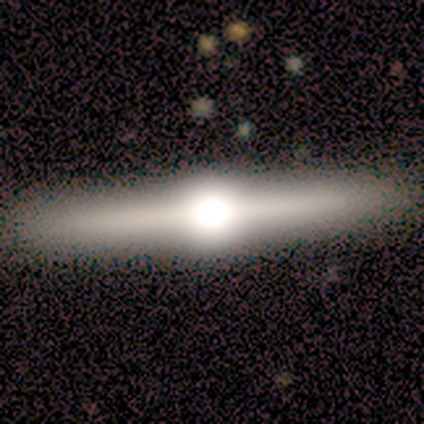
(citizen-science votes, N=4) Smooth or featured: featured or disk — 100%
Edge-on disk: yes — 100%
Edge-on bulge: rounded — 100%
Merging: none — 100%